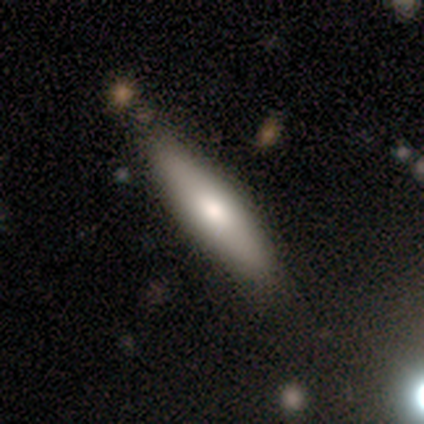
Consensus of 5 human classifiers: A featured or disk galaxy (60%) viewed edge-on (67%) with a boxy central bulge (50%, tied with rounded). Merging: none (40%, tied with minor disturbance).